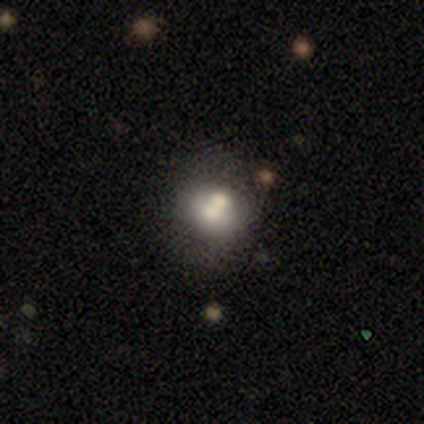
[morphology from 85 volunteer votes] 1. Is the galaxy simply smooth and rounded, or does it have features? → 64% smooth, 28% featured or disk, 8% star or artifact.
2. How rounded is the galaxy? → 81% round, 17% in between, 2% cigar-shaped.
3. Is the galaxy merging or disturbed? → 42% none, 40% merger, 9% minor disturbance, 9% major disturbance.